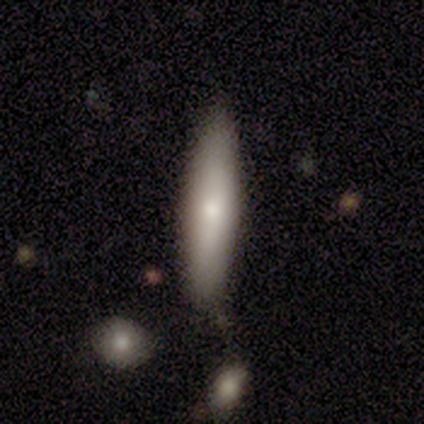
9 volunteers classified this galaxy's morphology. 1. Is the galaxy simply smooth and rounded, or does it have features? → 67% smooth, 33% featured or disk, 0% star or artifact.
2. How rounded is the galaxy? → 100% cigar-shaped, 0% round, 0% in between.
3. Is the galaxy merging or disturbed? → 78% none, 22% minor disturbance, 0% major disturbance, 0% merger.